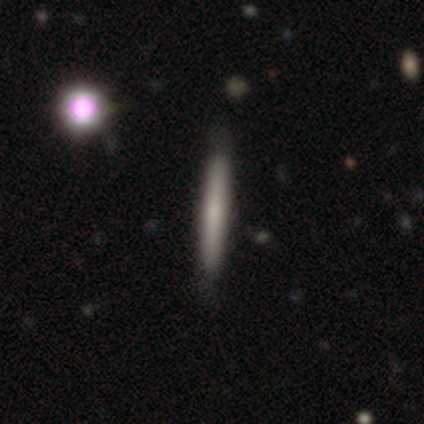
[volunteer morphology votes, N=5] Volunteers were most divided on "edge-on bulge" (2-way tie): boxy: 50%, none: 50%, rounded: 0%. More confident: edge-on disk — yes (100%); merging — none (100%); smooth or featured — featured or disk (80%).